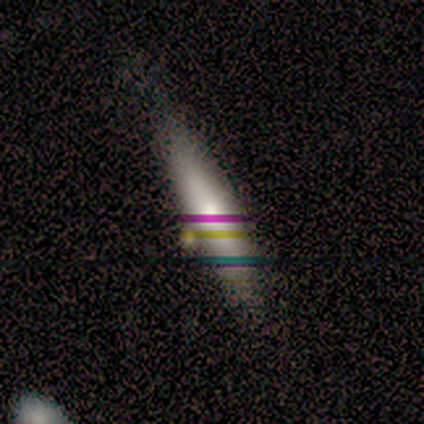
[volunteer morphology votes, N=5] Overall: smooth (60%; featured or disk 40%). How rounded: cigar-shaped (100%). Merging: none (80%).